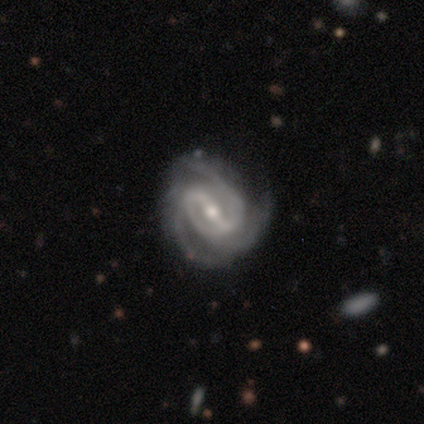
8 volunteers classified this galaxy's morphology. featured or disk 100%, smooth 0%, star or artifact 0%. Down the decision tree: edge-on disk — no (100%); bar — strong (50%, tied with weak); spiral arms — yes (100%); spiral arm count — 3 (62%); spiral winding — tight (50%); bulge size — small (62%); merging — none (75%).